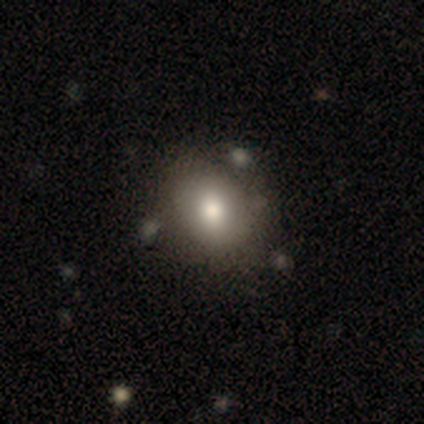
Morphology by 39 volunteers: Q: Smooth or featured?
A: smooth (64%); runner-up: featured or disk (26%)
Q: How rounded?
A: round (56%); runner-up: in between (44%)
Q: Merging?
A: none (57%); runner-up: minor disturbance (11%)